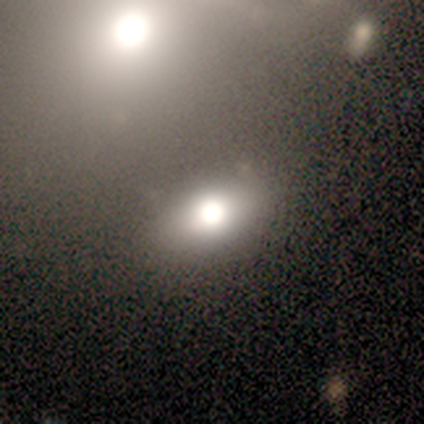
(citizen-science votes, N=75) Overall: smooth (61%; featured or disk 28%). How rounded: in between (67%; round 33%). Merging: none (67%).